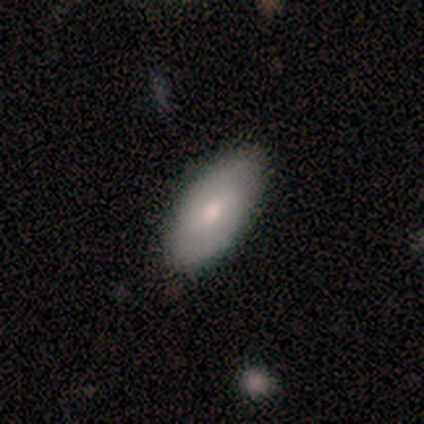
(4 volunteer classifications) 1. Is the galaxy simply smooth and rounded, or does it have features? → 50% smooth (tied), 50% featured or disk (tied), 0% star or artifact.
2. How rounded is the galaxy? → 100% in between, 0% round, 0% cigar-shaped.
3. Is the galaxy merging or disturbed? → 50% none (tied), 50% minor disturbance (tied), 0% major disturbance, 0% merger.